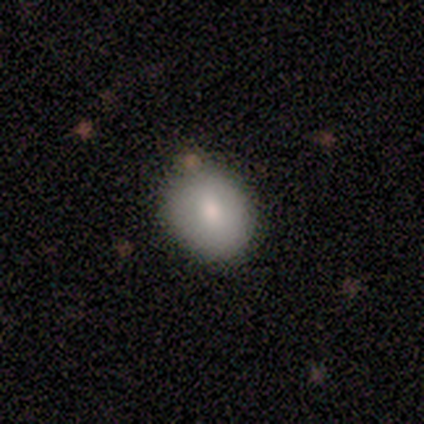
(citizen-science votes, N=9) A smooth galaxy with no disk features (89%) that is round (50%, tied with in between).

Vote fractions:
- Smooth or featured? smooth: 89% / featured or disk: 11% / star or artifact: 0%
- How rounded? round: 50% (tied) / in between: 50% (tied) / cigar-shaped: 0%
- Merging? none: 89% / major disturbance: 11% / minor disturbance: 0% / merger: 0%